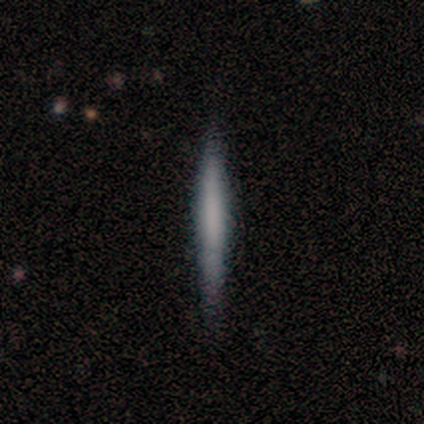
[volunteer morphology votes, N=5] Volunteers were most divided on "smooth or featured": smooth: 80%, featured or disk: 20%, star or artifact: 0%. More confident: how rounded — cigar-shaped (100%); merging — none (100%).